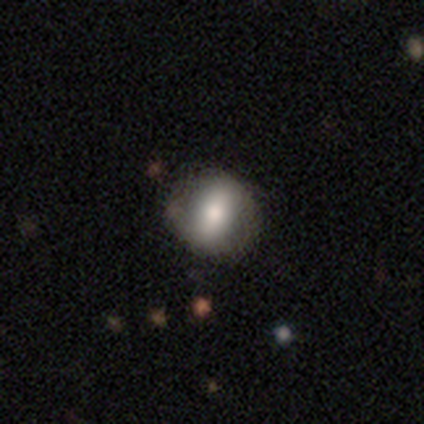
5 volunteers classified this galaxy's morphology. smooth-or-featured: smooth: 60% | featured or disk: 40% | star or artifact: 0%
  how-rounded: round: 67% | in between: 33% | cigar-shaped: 0%
  merging: none: 60% | minor disturbance: 40% | major disturbance: 0% | merger: 0%